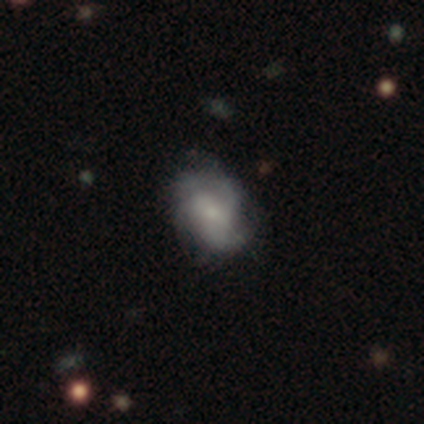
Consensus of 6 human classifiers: This appears to be a featured or disk galaxy (83%) with no bar (100%), 3 (60%) medium (80%) spiral arms (100%) and a small central bulge (80%). Merging: none (67%).